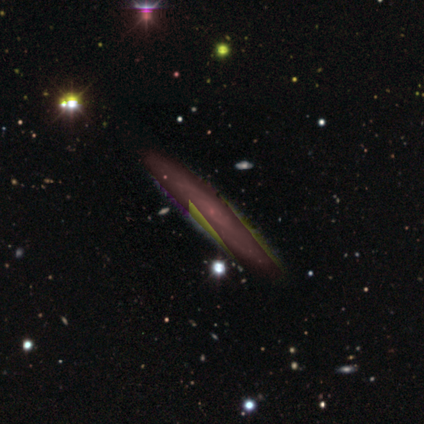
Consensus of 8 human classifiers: Smooth or featured? featured or disk (50%)
Edge-on disk? yes (50%, tied with no)
Edge-on bulge? none (50%, tied with rounded)
Merging? none (80%)